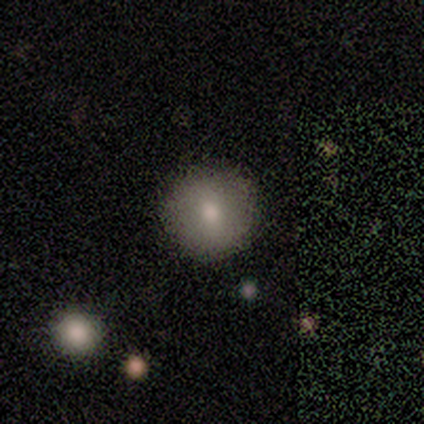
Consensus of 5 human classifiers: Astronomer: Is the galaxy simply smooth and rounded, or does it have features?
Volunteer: smooth — 100%.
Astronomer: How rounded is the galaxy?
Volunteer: round — 100%.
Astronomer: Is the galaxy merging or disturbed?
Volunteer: none — 100%.